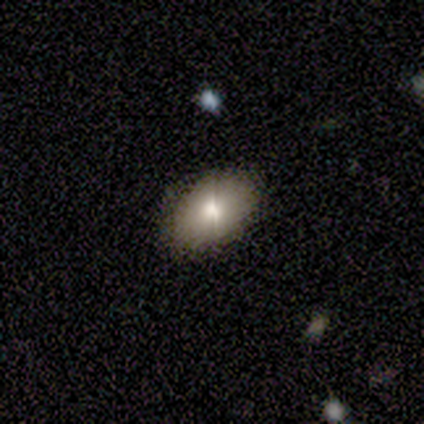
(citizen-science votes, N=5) Morphology: type=smooth (60%); roundness=in between (100%); merging=none (60%).